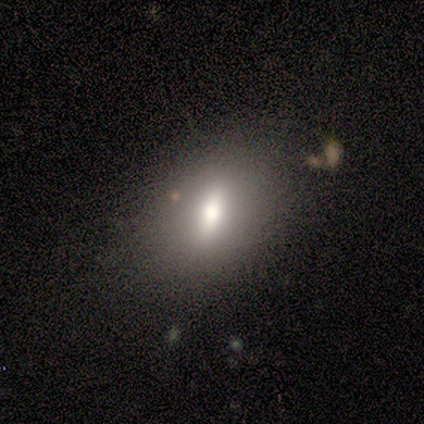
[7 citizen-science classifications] Q: Smooth or featured?
A: smooth (57%); runner-up: featured or disk (29%)
Q: How rounded?
A: in between (75%); runner-up: round (25%)
Q: Merging?
A: none (67%); runner-up: minor disturbance (17%)